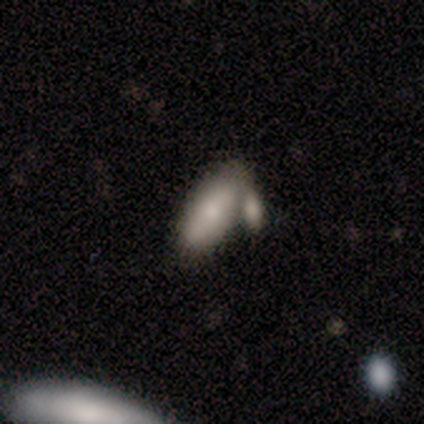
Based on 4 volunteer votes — smooth-or-featured: smooth: 75% | featured or disk: 25% | star or artifact: 0%
  how-rounded: in between: 100% | round: 0% | cigar-shaped: 0%
  merging: minor disturbance: 50% (tied) | merger: 50% (tied) | none: 0% | major disturbance: 0%